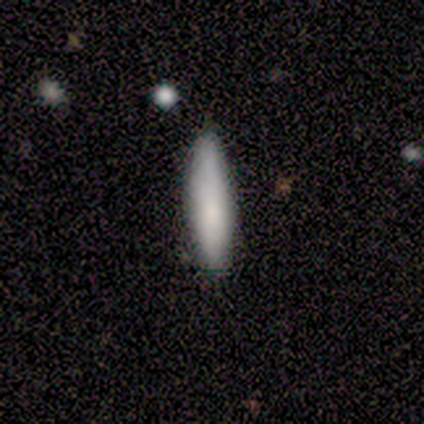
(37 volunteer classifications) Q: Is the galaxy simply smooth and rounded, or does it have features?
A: smooth — 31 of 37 (84%).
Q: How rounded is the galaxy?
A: cigar-shaped — 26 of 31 (84%).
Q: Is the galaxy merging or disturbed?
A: none — 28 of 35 (80%).